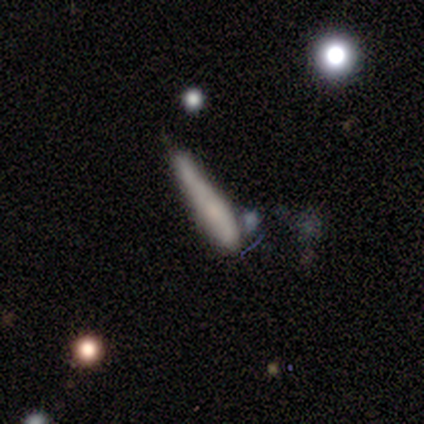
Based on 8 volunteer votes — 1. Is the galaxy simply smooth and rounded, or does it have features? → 62% smooth, 25% featured or disk, 12% star or artifact.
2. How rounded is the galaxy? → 80% cigar-shaped, 20% in between, 0% round.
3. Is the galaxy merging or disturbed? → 43% major disturbance, 29% none, 14% minor disturbance, 14% merger.